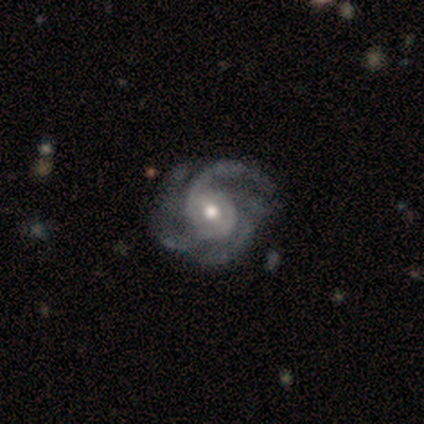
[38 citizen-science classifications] Morphology: type=featured or disk (95%); edge-on=no (100%); bar=weak (61%); spiral arms=yes (97%); winding=medium (54%); arm count=4 (37%); bulge=moderate (64%); merging=none (46%).